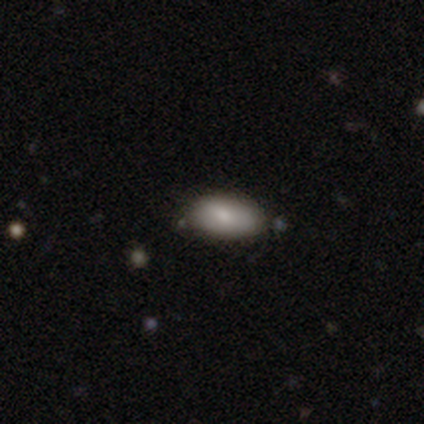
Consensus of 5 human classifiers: smooth_or_featured: smooth (p=0.60) [alt: featured or disk p=0.20]
how_rounded: in between (p=1.00)
merging: none (p=0.75) [alt: minor disturbance p=0.25]